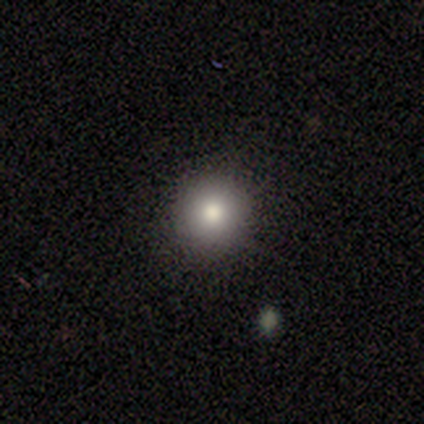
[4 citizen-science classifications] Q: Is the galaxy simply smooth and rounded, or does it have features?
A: smooth — 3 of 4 (75%).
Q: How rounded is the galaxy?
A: round — 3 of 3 (100%).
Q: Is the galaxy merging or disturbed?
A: none — 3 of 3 (100%).